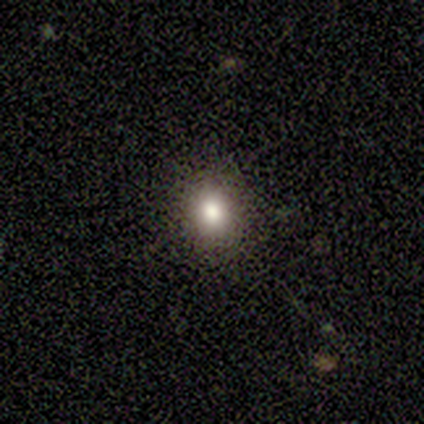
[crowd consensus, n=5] Q: Smooth or featured?
A: smooth (80%); runner-up: star or artifact (20%)
Q: How rounded?
A: round (75%); runner-up: in between (25%)
Q: Merging?
A: none (100%)